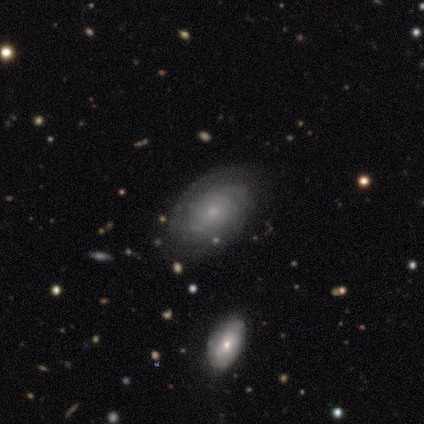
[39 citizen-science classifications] Volunteers were most divided on "spiral arm count": can't tell: 55%, 2: 32%, more than 4: 9%, 1: 5%, 3: 0%, 4: 0%. Remaining: edge-on disk — no (96%); bulge size — small (93%); bar — no (85%); spiral winding — tight (82%); spiral arms — yes (81%); smooth or featured — featured or disk (72%); merging — none (42%).